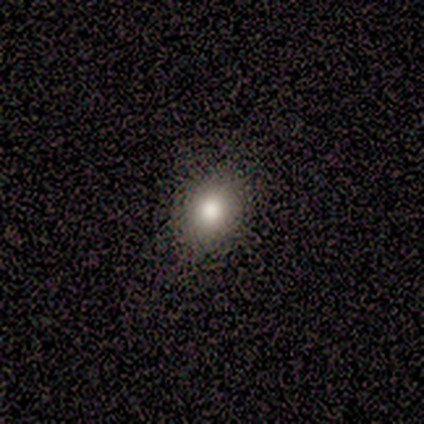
This appears to be a smooth galaxy with no disk features (100%) that is round (80%). Merging: none (80%).